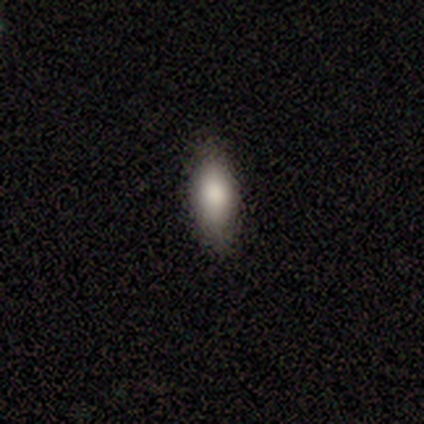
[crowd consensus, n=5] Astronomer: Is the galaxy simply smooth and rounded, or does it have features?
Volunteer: smooth — 60%.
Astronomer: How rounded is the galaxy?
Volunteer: in between — 100%.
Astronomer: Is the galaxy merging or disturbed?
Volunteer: none — 75%.